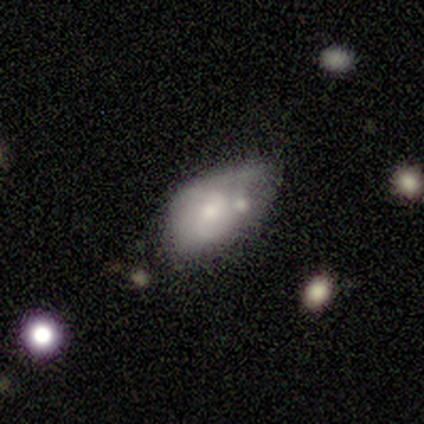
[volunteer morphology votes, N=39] Overall: smooth (46%, tied with featured or disk). How rounded: in between (100%). Merging: minor disturbance (39%; merger 25%).